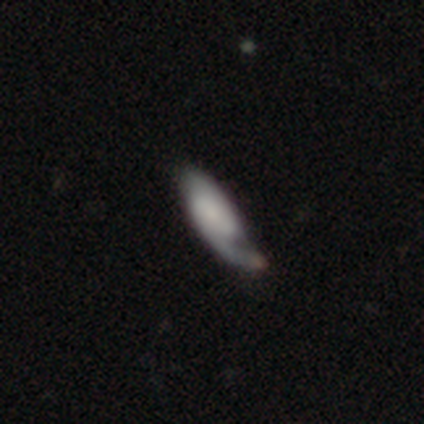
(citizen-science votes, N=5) Smooth or featured? 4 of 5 (80%) said featured or disk. Edge-on disk? 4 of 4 (100%) said no. Bar? 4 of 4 (100%) said no. Spiral arms? 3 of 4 (75%) said yes. Spiral winding? 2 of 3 (67%) said loose. Spiral arm count? 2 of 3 (67%) said 1. Bulge size? 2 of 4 (50%) said small. Merging? 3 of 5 (60%) said none.